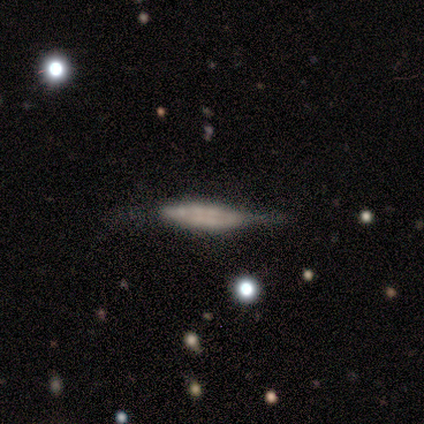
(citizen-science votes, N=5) This appears to be a featured or disk galaxy (80%) viewed edge-on (100%) with a boxy central bulge (50%). Merging: none (60%).